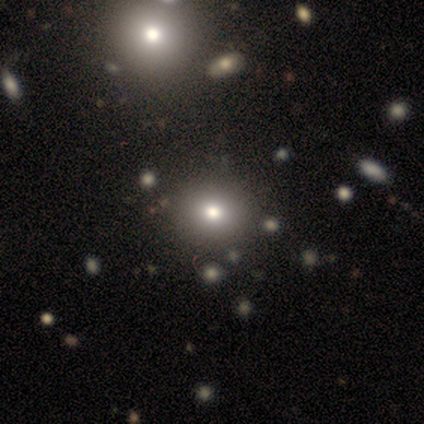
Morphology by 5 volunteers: smooth-or-featured: featured or disk: 60% | smooth: 40% | star or artifact: 0%
  disk-edge-on: no: 100% | yes: 0%
    bar: no: 100% | strong: 0% | weak: 0%
    has-spiral-arms: no: 100% | yes: 0%
    bulge-size: moderate: 100% | dominant: 0% | large: 0% | small: 0% | none: 0%
  merging: none: 60% | minor disturbance: 20% | merger: 20% | major disturbance: 0%